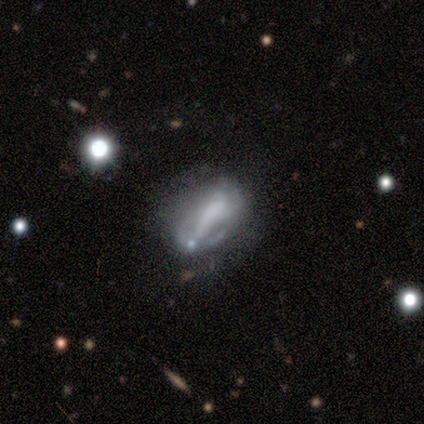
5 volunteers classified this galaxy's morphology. type=featured or disk (80%); edge-on=no (100%); bar=no (100%); spiral arms=no (100%); bulge=none (75%); merging=major disturbance (60%).